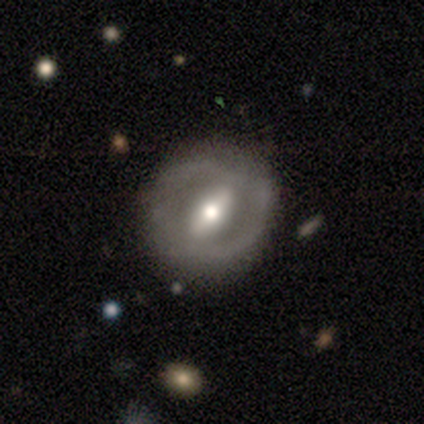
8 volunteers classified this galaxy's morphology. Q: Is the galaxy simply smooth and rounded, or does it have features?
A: featured or disk — 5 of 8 (62%).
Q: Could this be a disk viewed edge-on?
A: no — 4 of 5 (80%).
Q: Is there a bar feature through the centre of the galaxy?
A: strong — 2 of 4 (50%).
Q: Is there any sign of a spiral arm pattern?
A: no — 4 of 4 (100%).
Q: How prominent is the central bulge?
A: moderate — 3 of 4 (75%).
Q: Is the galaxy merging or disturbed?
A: none — 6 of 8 (75%).